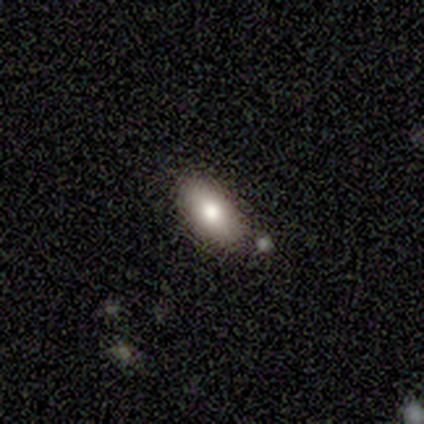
This is clearly a smooth galaxy (80%). How rounded: clearly in between (100%). Merging: clearly none (100%).